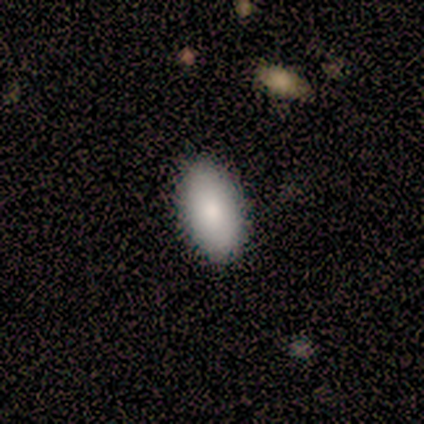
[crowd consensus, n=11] Smooth or featured? smooth (64%)
How rounded? in between (100%)
Merging? none (100%)